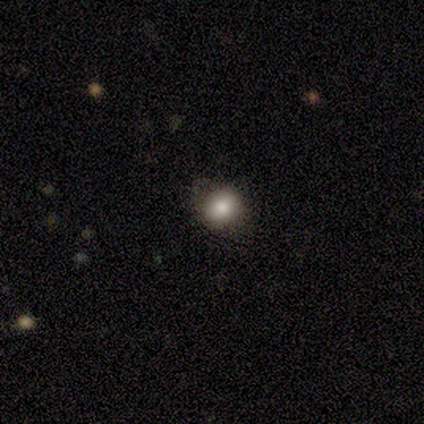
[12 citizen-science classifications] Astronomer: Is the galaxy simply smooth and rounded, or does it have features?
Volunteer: smooth — 92%.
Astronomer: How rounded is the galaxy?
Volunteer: in between — 55% (runner-up: round, 45%).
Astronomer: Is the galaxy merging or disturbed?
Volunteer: none — 73%.